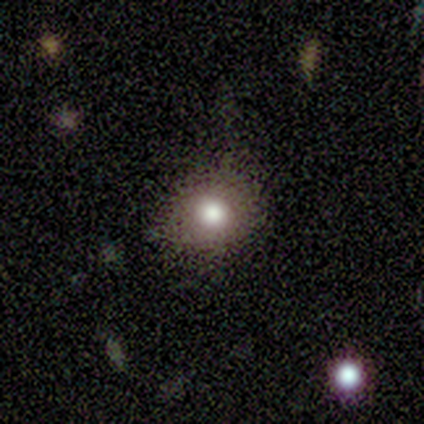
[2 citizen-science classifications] Overall: smooth (100%). How rounded: round (100%). Merging: none (50%, tied with major disturbance).